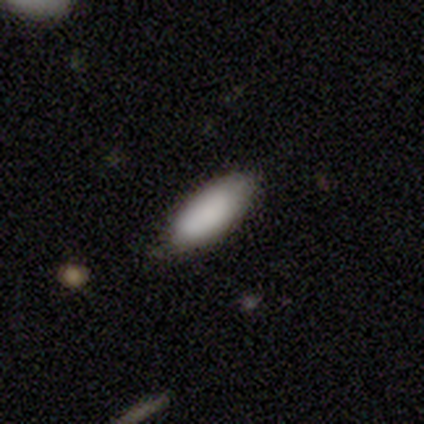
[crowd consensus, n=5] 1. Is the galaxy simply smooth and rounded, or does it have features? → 60% smooth, 40% featured or disk, 0% star or artifact.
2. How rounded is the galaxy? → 100% in between, 0% round, 0% cigar-shaped.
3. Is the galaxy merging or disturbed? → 60% none, 40% minor disturbance, 0% major disturbance, 0% merger.